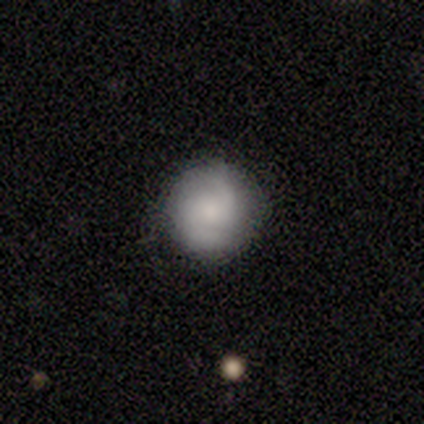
A smooth galaxy with no disk features (54%) that is round (100%).

Vote fractions:
- Smooth or featured? smooth: 54% / featured or disk: 41% / star or artifact: 5%
- How rounded? round: 100% / in between: 0% / cigar-shaped: 0%
- Merging? none: 86% / minor disturbance: 14% / major disturbance: 0% / merger: 0%